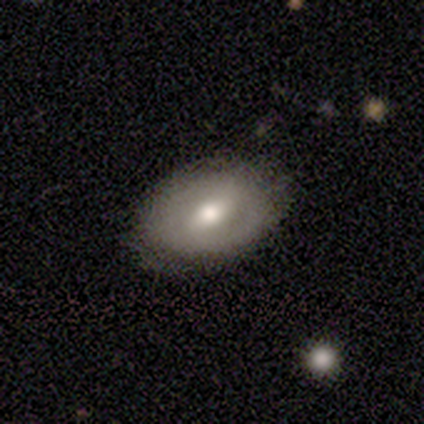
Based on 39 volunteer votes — Smooth or featured: smooth — 46% (tied with featured or disk — 46%)
How rounded: in between — 78% (round — 22%)
Merging: none — 81% (minor disturbance — 14%)